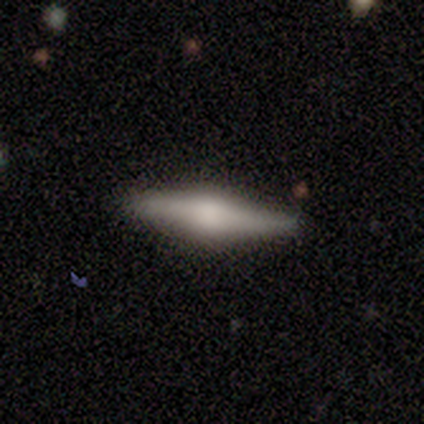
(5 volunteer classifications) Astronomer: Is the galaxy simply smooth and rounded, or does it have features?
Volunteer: featured or disk — 60% (runner-up: smooth, 40%).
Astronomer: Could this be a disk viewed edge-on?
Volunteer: yes — 100%.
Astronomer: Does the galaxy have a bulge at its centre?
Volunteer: rounded — 100%.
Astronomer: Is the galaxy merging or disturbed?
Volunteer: none — 100%.